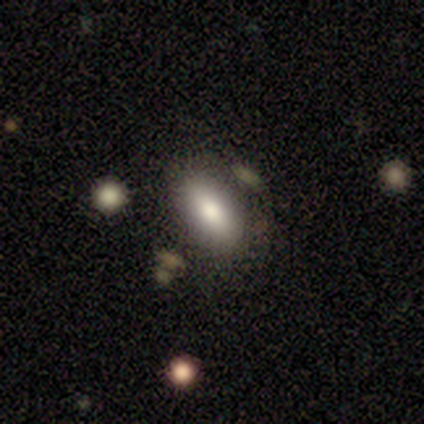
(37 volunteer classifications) Morphology: type=smooth (68%); roundness=in between (76%); merging=none (65%).